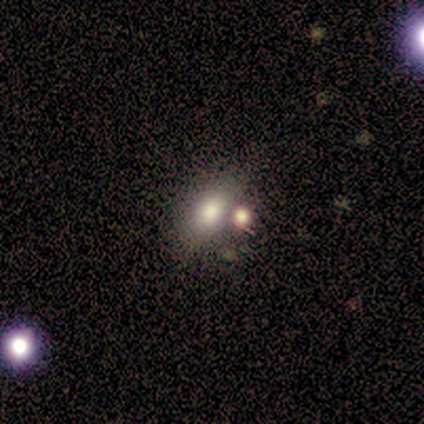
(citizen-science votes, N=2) star or artifact 100%, smooth 0%, featured or disk 0%.